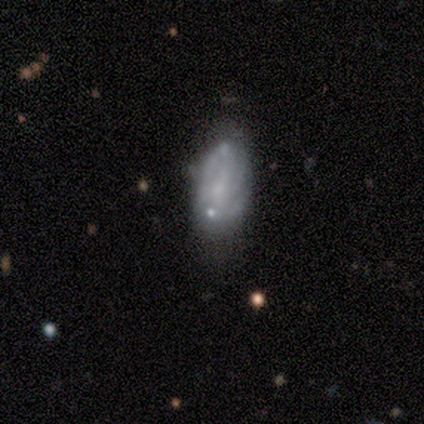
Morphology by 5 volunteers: featured or disk 60%, smooth 40%, star or artifact 0%. Down the decision tree: edge-on disk — no (100%); bar — no (67%); spiral arms — yes (100%); spiral arm count — 2 (67%); spiral winding — medium (67%); bulge size — none (67%); merging — none (60%).